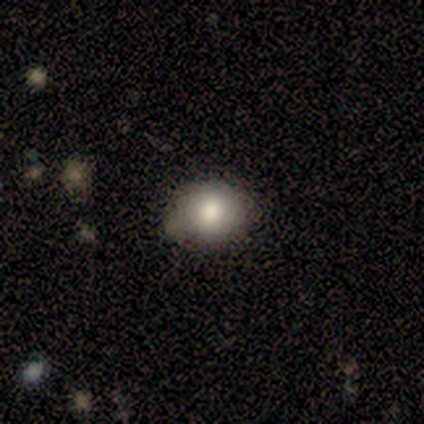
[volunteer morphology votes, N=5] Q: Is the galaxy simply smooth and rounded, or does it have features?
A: smooth — 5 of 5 (100%).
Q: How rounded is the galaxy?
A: round — 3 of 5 (60%).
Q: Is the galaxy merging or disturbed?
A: none — 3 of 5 (60%).